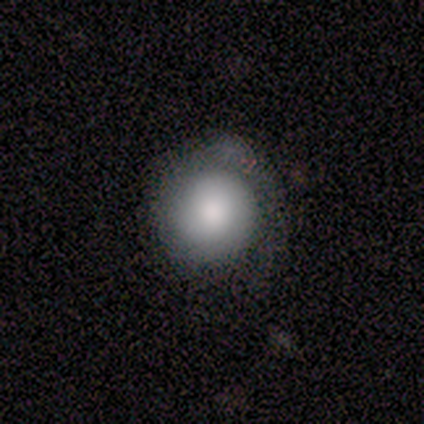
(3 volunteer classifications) smooth 67%, featured or disk 33%, star or artifact 0%. Down the decision tree: how rounded — round (100%); merging — minor disturbance (67%).